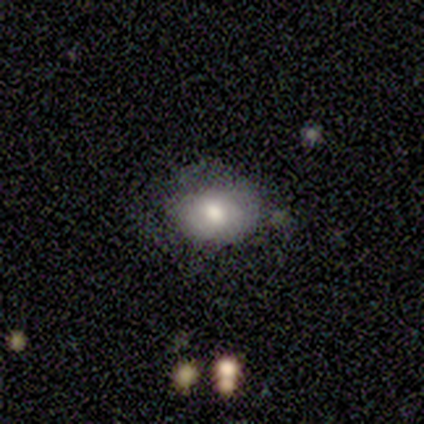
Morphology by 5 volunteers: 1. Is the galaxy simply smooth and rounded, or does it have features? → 100% smooth, 0% featured or disk, 0% star or artifact.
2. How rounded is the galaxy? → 60% in between, 40% round, 0% cigar-shaped.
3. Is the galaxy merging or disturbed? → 60% none, 20% minor disturbance, 20% major disturbance, 0% merger.